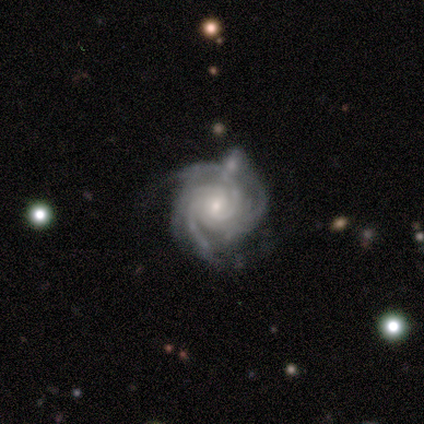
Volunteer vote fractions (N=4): This appears to be a featured or disk galaxy (100%) with no bar (50%), 3 (75%) tight (100%) spiral arms (100%) and a small central bulge (75%). Merging: minor disturbance (50%).